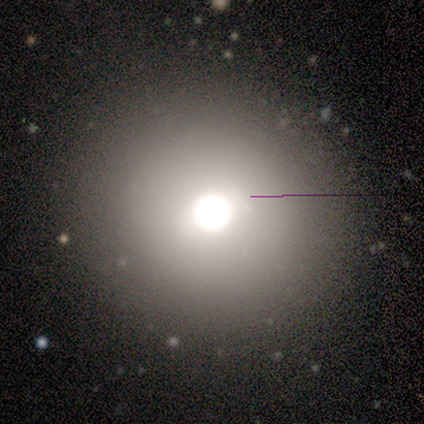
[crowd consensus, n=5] Morphology: type=smooth (40%, tied with star or artifact); roundness=round (100%); merging=minor disturbance (67%).